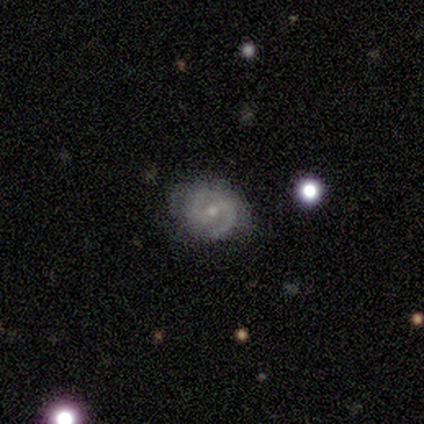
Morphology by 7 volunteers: smooth_or_featured: featured or disk (p=1.00)
disk_edge_on: no (p=1.00)
bar: weak (p=0.43) [alt: strong p=0.29]
has_spiral_arms: yes (p=0.86) [alt: no p=0.14]
spiral_winding: medium (p=0.67) [alt: tight p=0.33]
spiral_arm_count: 2 (p=1.00)
bulge_size: moderate (p=0.57) [alt: small p=0.43]
merging: none (p=0.71) [alt: minor disturbance p=0.29]